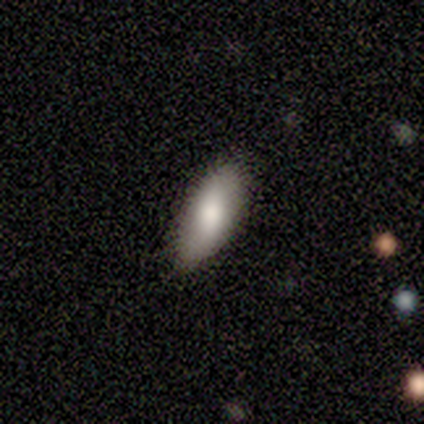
Q: Smooth or featured?
A: smooth (80%); runner-up: featured or disk (20%)
Q: How rounded?
A: in between (100%)
Q: Merging?
A: none (60%); runner-up: minor disturbance (40%)